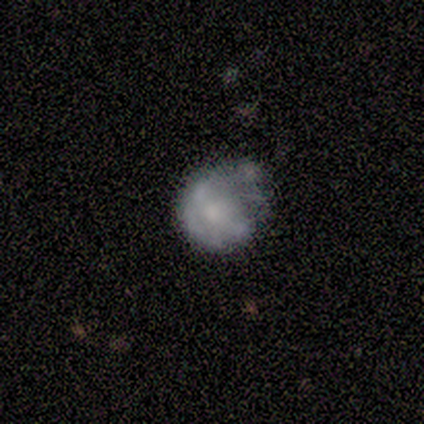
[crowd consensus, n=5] A featured or disk galaxy (60%) with no bar (100%), no spiral arms (100%) and a large central bulge (33%, tied with small and none).

Vote fractions:
- Smooth or featured? featured or disk: 60% / smooth: 40% / star or artifact: 0%
- Edge-on disk? no: 100% / yes: 0%
- Bar? no: 100% / strong: 0% / weak: 0%
- Spiral arms? no: 100% / yes: 0%
- Bulge size? large: 33% (tied) / small: 33% (tied) / none: 33% (tied) / dominant: 0% / moderate: 0%
- Merging? minor disturbance: 40% (tied) / merger: 40% (tied) / none: 20% / major disturbance: 0%